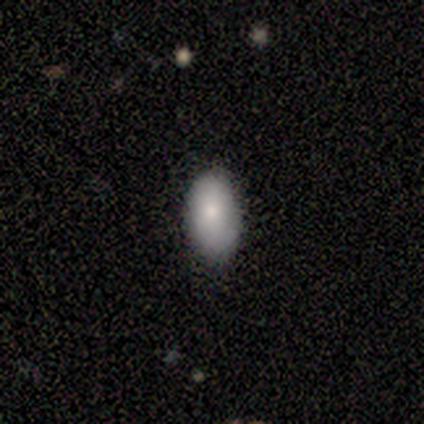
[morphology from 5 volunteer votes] Q: Smooth or featured?
A: smooth (80%); runner-up: featured or disk (20%)
Q: How rounded?
A: in between (100%)
Q: Merging?
A: none (80%); runner-up: minor disturbance (20%)